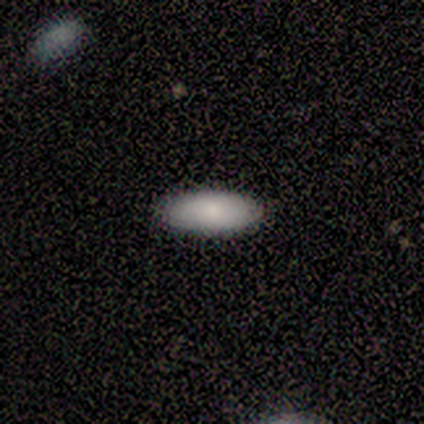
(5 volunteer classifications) A smooth galaxy with no disk features (100%) that is in between round and cigar-shaped (80%).

Vote fractions:
- Smooth or featured? smooth: 100% / featured or disk: 0% / star or artifact: 0%
- How rounded? in between: 80% / round: 20% / cigar-shaped: 0%
- Merging? none: 100% / minor disturbance: 0% / major disturbance: 0% / merger: 0%